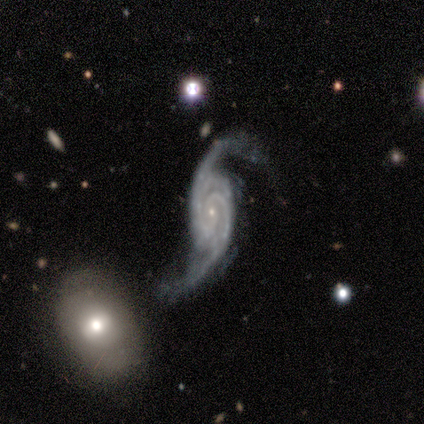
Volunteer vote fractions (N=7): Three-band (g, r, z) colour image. It shows a featured or disk galaxy (100%) with no bar (71%), 2 (100%) loose (57%) spiral arms (100%) and a small central bulge (86%). Merging: none (43%, tied with minor disturbance).